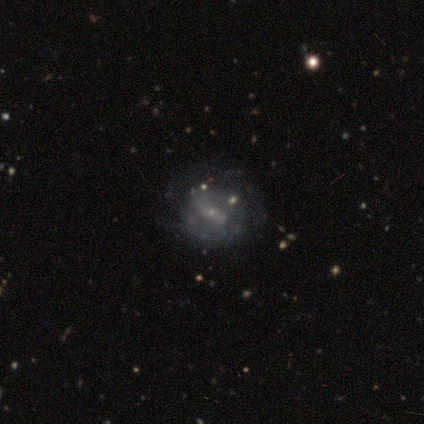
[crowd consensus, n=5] Morphology: type=featured or disk (80%); edge-on=no (100%); bar=strong (50%, tied with weak); spiral arms=yes (50%, tied with no); winding=medium (50%, tied with loose); arm count=2 (100%); bulge=small (100%); merging=none (60%).